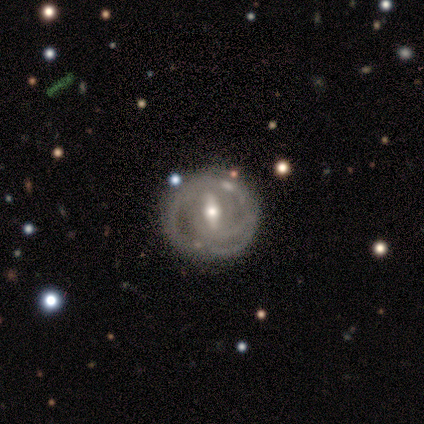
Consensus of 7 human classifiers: A featured or disk galaxy (100%) with a strong bar (50%, tied with weak), tight (75%) spiral arms (67%) and a moderate central bulge (50%, tied with small). Merging: none (71%).